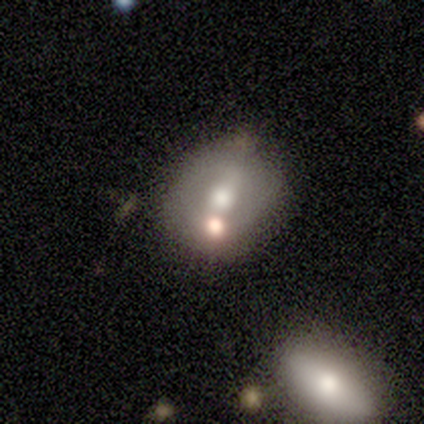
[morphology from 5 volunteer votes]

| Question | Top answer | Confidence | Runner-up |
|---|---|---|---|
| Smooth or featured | featured or disk | 100% | — |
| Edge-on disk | no | 100% | — |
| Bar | no | 100% | — |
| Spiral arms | no | 80% | yes (20%) |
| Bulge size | moderate | 80% | large (20%) |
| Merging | none | 60% | minor disturbance (40%) |